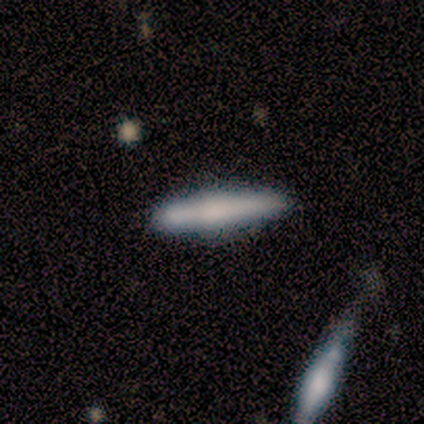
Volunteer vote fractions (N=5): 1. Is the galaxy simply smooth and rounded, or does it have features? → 60% smooth, 20% featured or disk, 20% star or artifact.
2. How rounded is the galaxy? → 100% cigar-shaped, 0% round, 0% in between.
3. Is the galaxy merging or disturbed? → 100% none, 0% minor disturbance, 0% major disturbance, 0% merger.